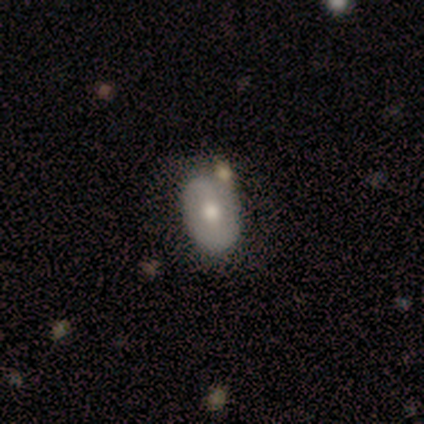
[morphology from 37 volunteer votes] smooth 54%, featured or disk 46%, star or artifact 0%. Down the decision tree: how rounded — in between (85%); merging — none (76%).